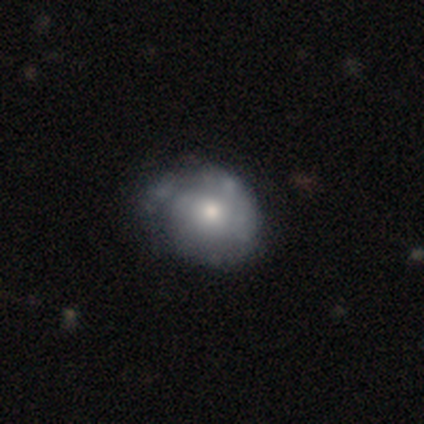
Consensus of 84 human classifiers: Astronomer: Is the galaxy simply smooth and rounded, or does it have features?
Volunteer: featured or disk — 57% (runner-up: smooth, 37%).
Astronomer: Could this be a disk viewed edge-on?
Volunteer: no — 100%.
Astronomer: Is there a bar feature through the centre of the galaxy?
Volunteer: no — 75%.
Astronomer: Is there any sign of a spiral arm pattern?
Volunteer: yes — 56% (runner-up: no, 44%).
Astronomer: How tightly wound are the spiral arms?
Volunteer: tight — 56% (runner-up: medium, 37%).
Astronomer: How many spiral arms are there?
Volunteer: can't tell — 48%.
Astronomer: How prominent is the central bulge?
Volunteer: moderate — 65%.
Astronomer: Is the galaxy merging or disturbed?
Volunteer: none — 52% (runner-up: minor disturbance, 34%).